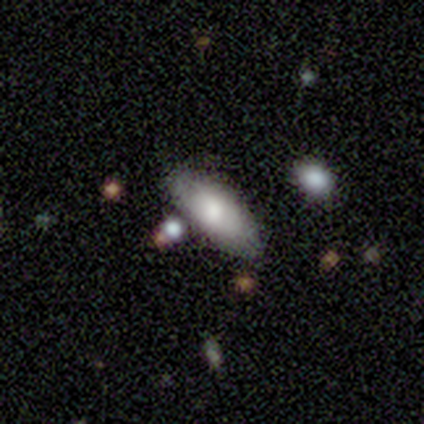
smooth-or-featured: smooth: 75% | featured or disk: 25% | star or artifact: 0%
  how-rounded: in between: 67% | round: 33% | cigar-shaped: 0%
  merging: none: 75% | merger: 25% | minor disturbance: 0% | major disturbance: 0%